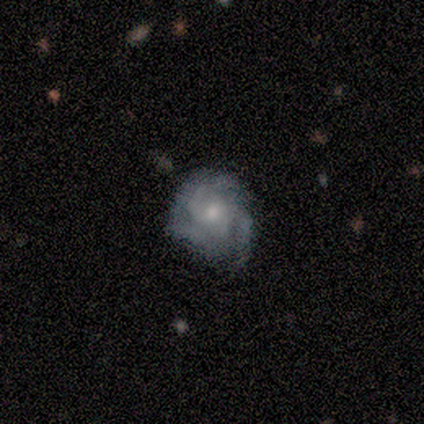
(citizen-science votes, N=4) featured or disk 100%, smooth 0%, star or artifact 0%. Down the decision tree: edge-on disk — no (75%); bar — no (100%); spiral arms — yes (67%); spiral arm count — 3 (50%, tied with can't tell); spiral winding — tight (100%); bulge size — moderate (67%); merging — none (50%).